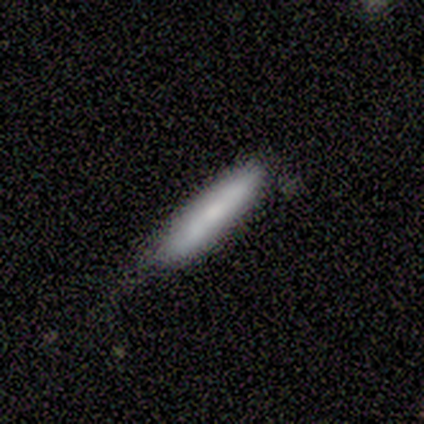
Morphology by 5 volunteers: smooth-or-featured: smooth: 100% | featured or disk: 0% | star or artifact: 0%
  how-rounded: cigar-shaped: 100% | round: 0% | in between: 0%
  merging: none: 60% | minor disturbance: 20% | major disturbance: 20% | merger: 0%